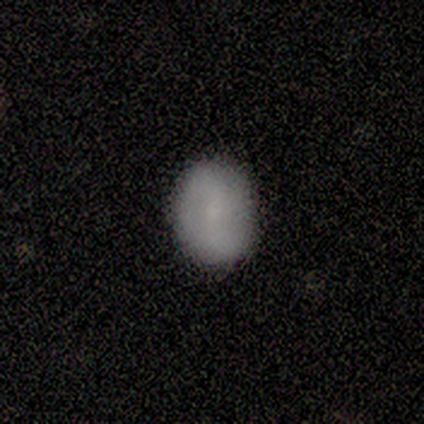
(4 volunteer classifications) Smooth or featured? smooth (100%)
How rounded? in between (100%)
Merging? none (100%)